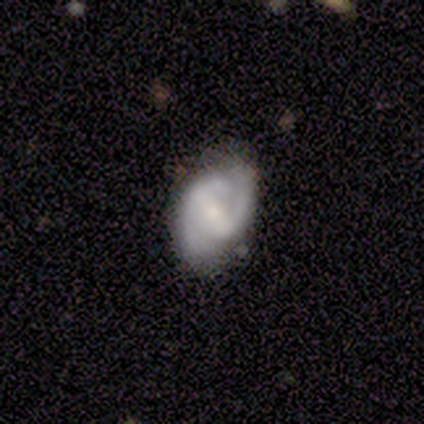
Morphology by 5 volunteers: A featured or disk galaxy (100%) with a weak bar (60%), 2 (100%) tight (60%) spiral arms (100%) and a moderate central bulge (60%).

Vote fractions:
- Smooth or featured? featured or disk: 100% / smooth: 0% / star or artifact: 0%
- Edge-on disk? no: 100% / yes: 0%
- Bar? weak: 60% / strong: 20% / no: 20%
- Spiral arms? yes: 100% / no: 0%
- Spiral winding? tight: 60% / medium: 40% / loose: 0%
- Spiral arm count? 2: 100% / 1: 0% / 3: 0% / 4: 0% / more than 4: 0% / can't tell: 0%
- Bulge size? moderate: 60% / small: 40% / dominant: 0% / large: 0% / none: 0%
- Merging? none: 60% / minor disturbance: 40% / major disturbance: 0% / merger: 0%